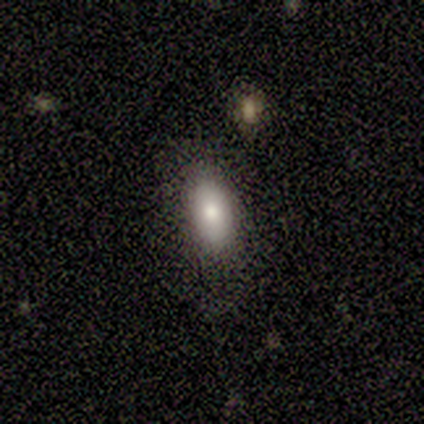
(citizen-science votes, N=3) smooth 67%, star or artifact 33%, featured or disk 0%. Down the decision tree: how rounded — in between (100%); merging — none (100%).